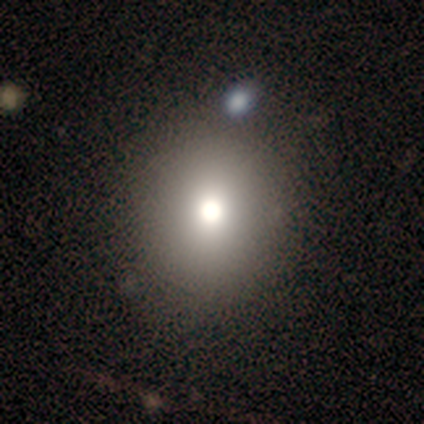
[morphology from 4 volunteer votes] Overall: smooth (75%). How rounded: round (100%). Merging: none (100%).